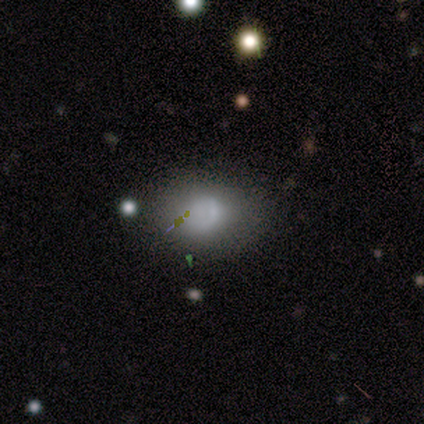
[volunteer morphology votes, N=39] A smooth galaxy with no disk features (72%) that is in between round and cigar-shaped (61%). Merging: none (51%).